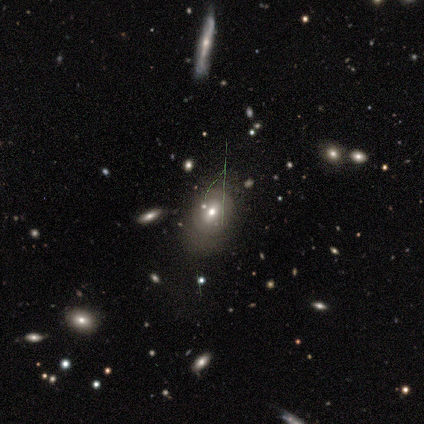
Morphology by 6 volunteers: Smooth or featured? smooth (50%, tied with featured or disk)
How rounded? round (67%)
Merging? none (67%)